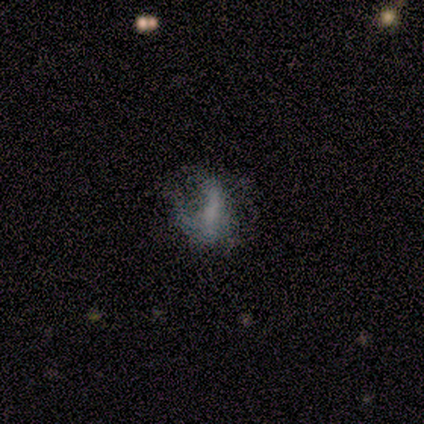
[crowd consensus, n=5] Smooth or featured: smooth — 40% (tied with star or artifact — 40%)
How rounded: round — 50% (tied with in between — 50%)
Merging: major disturbance — 67% (minor disturbance — 33%)